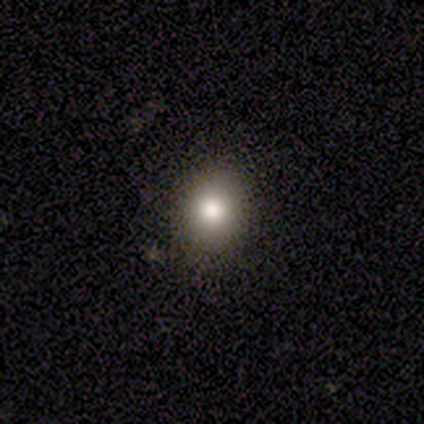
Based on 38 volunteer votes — Overall: smooth (84%). How rounded: round (59%; in between 38%). Merging: none (88%).